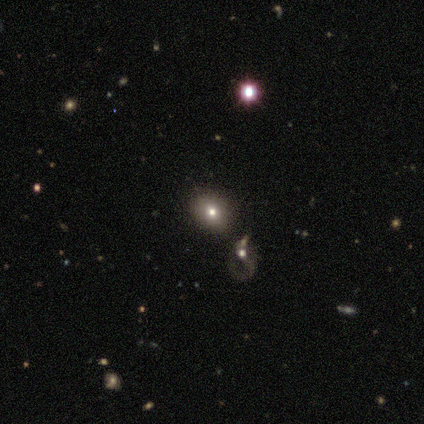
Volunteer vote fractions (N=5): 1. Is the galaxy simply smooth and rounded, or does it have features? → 40% smooth (tied), 40% star or artifact (tied), 20% featured or disk.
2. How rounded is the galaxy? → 50% round (tied), 50% in between (tied), 0% cigar-shaped.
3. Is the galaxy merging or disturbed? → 33% none (tied), 33% minor disturbance (tied), 33% major disturbance (tied), 0% merger.